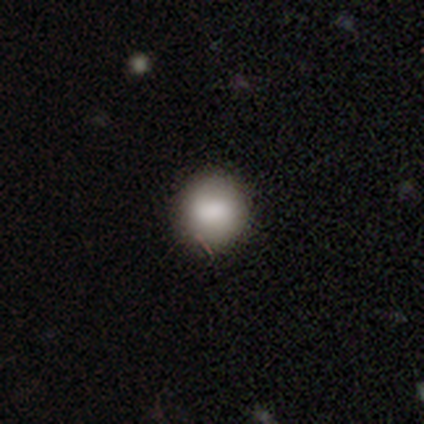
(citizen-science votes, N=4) Morphology: type=smooth (75%); roundness=round (100%); merging=none (100%).